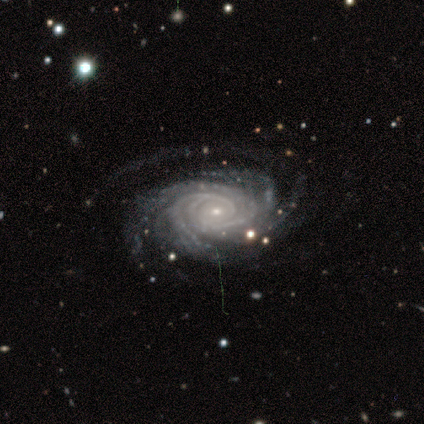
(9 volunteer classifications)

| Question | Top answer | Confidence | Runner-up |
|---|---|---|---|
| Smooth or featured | featured or disk | 89% | star or artifact (11%) |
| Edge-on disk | no | 88% | yes (12%) |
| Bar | no | 100% | — |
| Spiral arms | yes | 100% | — |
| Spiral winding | tight | 100% | — |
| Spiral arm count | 3 | 29% | tied: 4 (29%), more than 4 (29%) |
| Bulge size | small | 71% | moderate (29%) |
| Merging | none | 100% | — |